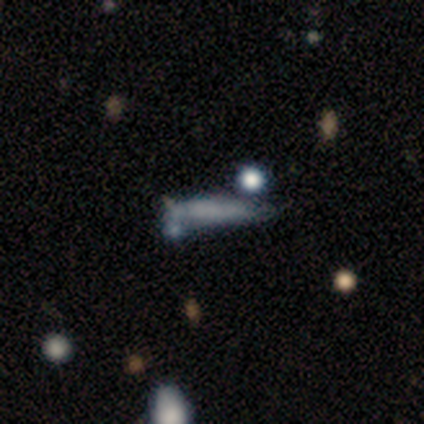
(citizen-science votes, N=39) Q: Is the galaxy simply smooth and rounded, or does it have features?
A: smooth — 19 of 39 (49%).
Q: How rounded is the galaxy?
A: cigar-shaped — 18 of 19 (95%).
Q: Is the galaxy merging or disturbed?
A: none — 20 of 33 (61%).